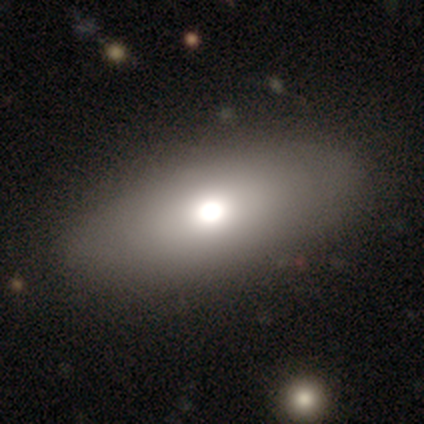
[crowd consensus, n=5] A smooth galaxy with no disk features (80%) that is in between round and cigar-shaped (100%). Merging: none (100%).